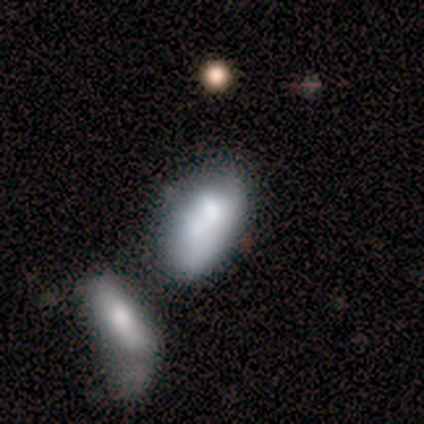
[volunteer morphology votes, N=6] type=featured or disk (67%); edge-on=no (100%); bar=no (100%); spiral arms=no (75%); bulge=moderate (75%); merging=minor disturbance (33%, tied with merger).